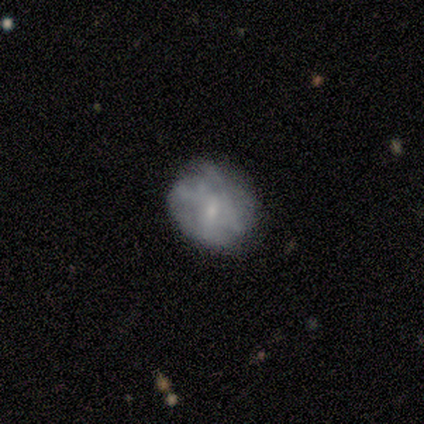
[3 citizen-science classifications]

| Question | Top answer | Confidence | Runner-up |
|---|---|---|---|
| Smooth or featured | smooth | 100% | — |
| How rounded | round | 100% | — |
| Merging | none | 100% | — |